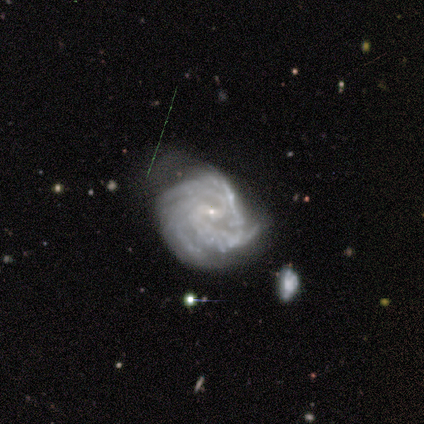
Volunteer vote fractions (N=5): Smooth or featured: featured or disk — 100%
Edge-on disk: no — 100%
Bar: no — 80% (weak — 20%)
Spiral arms: yes — 100%
Spiral winding: tight — 100%
Spiral arm count: can't tell — 60% (3 — 40%)
Bulge size: small — 60% (none — 40%)
Merging: none — 40% (tied with major disturbance — 40%)